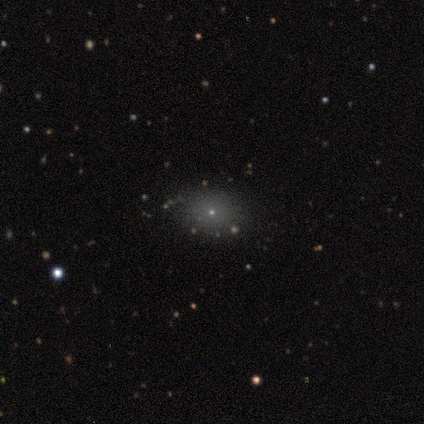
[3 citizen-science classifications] Smooth or featured? 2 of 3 (67%) said smooth. How rounded? 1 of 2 (50%, tied with in between) said round. Merging? 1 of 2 (50%, tied with minor disturbance) said none.